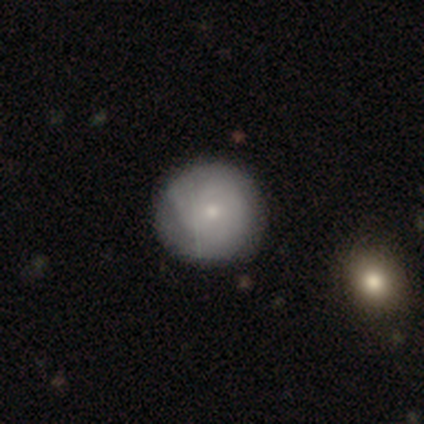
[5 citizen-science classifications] Morphology: type=featured or disk (60%); edge-on=no (100%); bar=no (100%); spiral arms=yes (67%); winding=tight (50%, tied with medium); arm count=2 (50%, tied with can't tell); bulge=moderate (67%); merging=minor disturbance (60%).